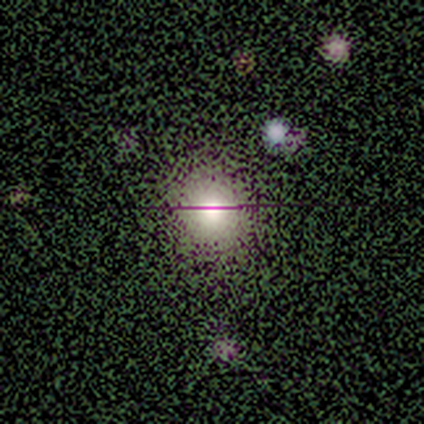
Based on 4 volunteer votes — smooth 50% (tied), star or artifact 50% (tied), featured or disk 0%. Down the decision tree: how rounded — round (100%); merging — none (100%).